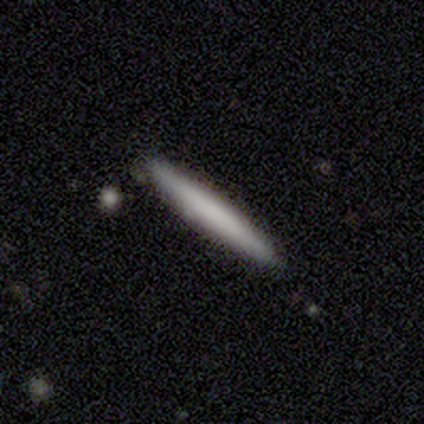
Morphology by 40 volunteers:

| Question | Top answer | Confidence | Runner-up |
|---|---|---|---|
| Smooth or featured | smooth | 72% | featured or disk (22%) |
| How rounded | cigar-shaped | 100% | — |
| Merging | none | 92% | minor disturbance (8%) |